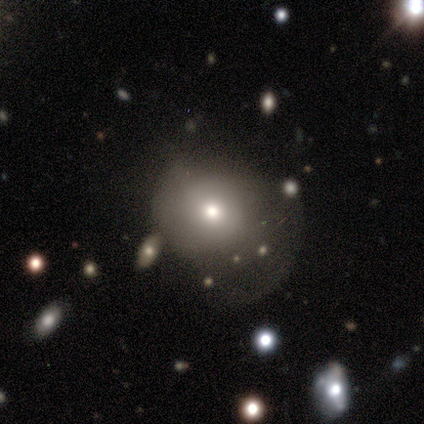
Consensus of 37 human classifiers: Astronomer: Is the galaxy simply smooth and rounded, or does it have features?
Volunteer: smooth — 65%.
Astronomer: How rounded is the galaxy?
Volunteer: round — 88%.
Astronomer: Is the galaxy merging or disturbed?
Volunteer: none — 42% (runner-up: major disturbance, 39%).